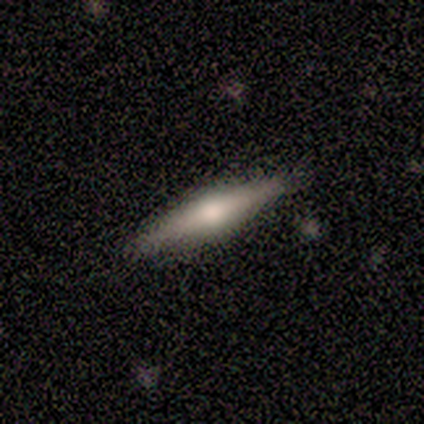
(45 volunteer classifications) This is likely a featured or disk galaxy (64%). It is clearly viewed edge-on (100%). Edge-on bulge: clearly rounded (93%). Merging: clearly none (90%).